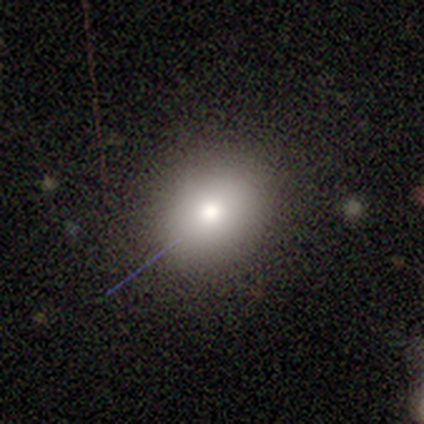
This appears to be a smooth galaxy with no disk features (67%) that is round (50%, tied with in between). Merging: none (50%, tied with minor disturbance).